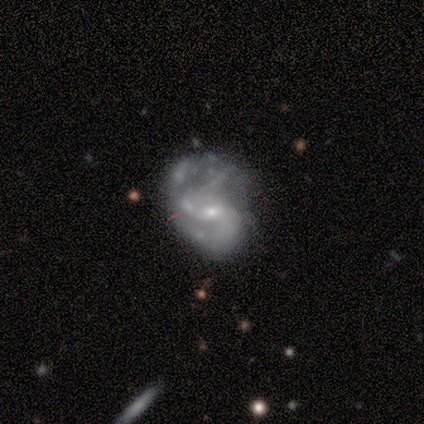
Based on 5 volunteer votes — Smooth or featured? 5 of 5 (100%) said featured or disk. Edge-on disk? 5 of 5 (100%) said no. Bar? 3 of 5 (60%) said no. Spiral arms? 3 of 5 (60%) said yes. Spiral winding? 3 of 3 (100%) said loose. Spiral arm count? 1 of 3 (33%, tied with 3 and can't tell) said 2. Bulge size? 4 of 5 (80%) said small. Merging? 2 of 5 (40%) said none.